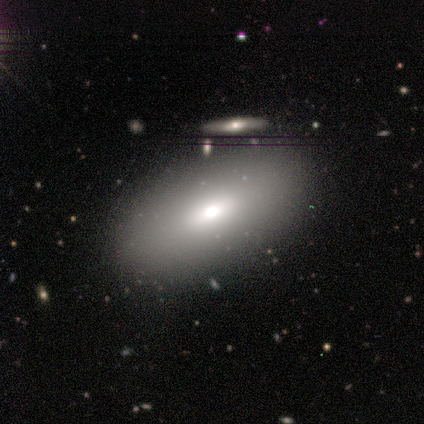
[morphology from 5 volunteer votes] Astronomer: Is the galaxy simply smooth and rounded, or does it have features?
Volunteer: smooth — 100%.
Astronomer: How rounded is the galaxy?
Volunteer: in between — 100%.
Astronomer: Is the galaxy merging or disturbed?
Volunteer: none — 80%.